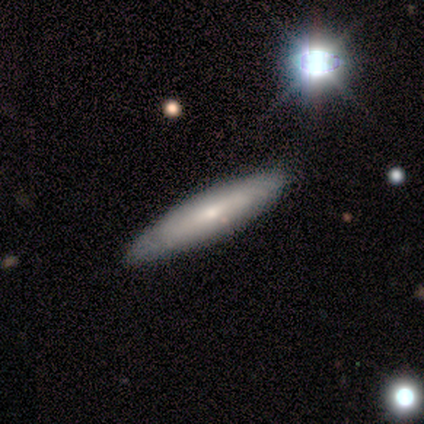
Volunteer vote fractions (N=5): Smooth or featured? 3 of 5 (60%) said smooth. How rounded? 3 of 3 (100%) said cigar-shaped. Merging? 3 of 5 (60%) said none.